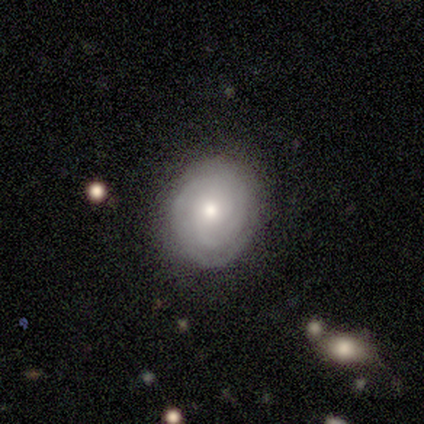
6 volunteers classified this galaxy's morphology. Overall: featured or disk (67%; star or artifact 33%). Edge-on disk: no (100%). Bar: weak (50%, tied with no). Spiral arms: yes (100%). Spiral arm count: can't tell (75%). Spiral winding: tight (75%). Bulge size: moderate (75%). Merging: none (100%).